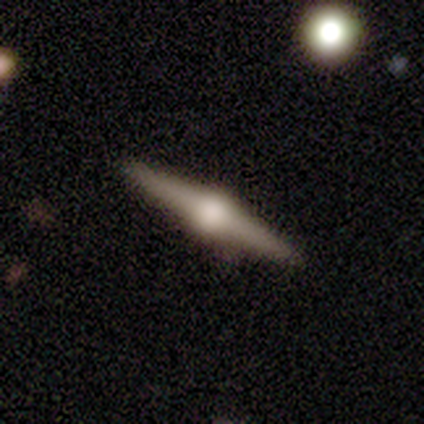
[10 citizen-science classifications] Volunteers were most divided on "merging": none: 89%, minor disturbance: 11%, major disturbance: 0%, merger: 0%. More confident: edge-on disk — yes (100%); edge-on bulge — rounded (100%); smooth or featured — featured or disk (90%).